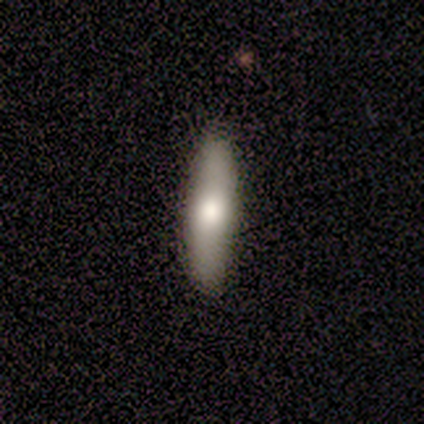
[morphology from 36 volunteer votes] Smooth or featured? smooth (69%)
How rounded? cigar-shaped (76%)
Merging? none (89%)